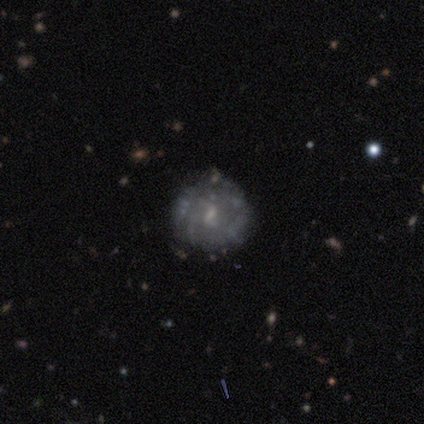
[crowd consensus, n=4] Smooth or featured?
  - featured or disk: 100% *
  - smooth: 0%
  - star or artifact: 0%
Edge-on disk?
  - no: 100% *
  - yes: 0%
Bar?
  - no: 75% *
  - weak: 25%
  - strong: 0%
Spiral arms?
  - yes: 75% *
  - no: 25%
Spiral winding?
  - loose: 100% *
  - tight: 0%
  - medium: 0%
Spiral arm count?
  - 2: 100% *
  - 1: 0%
  - 3: 0%
  - 4: 0%
  - more than 4: 0%
  - can't tell: 0%
Bulge size?
  - small: 75% *
  - moderate: 25%
  - dominant: 0%
  - large: 0%
  - none: 0%
Merging?
  - none: 100% *
  - minor disturbance: 0%
  - major disturbance: 0%
  - merger: 0%